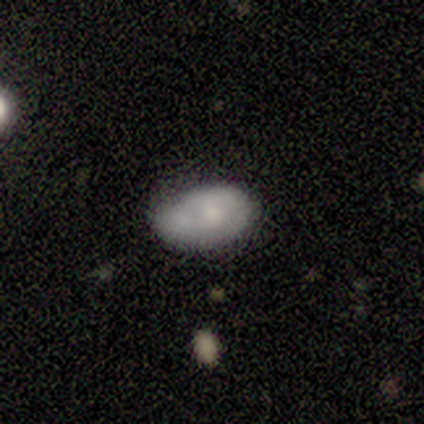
Smooth or featured?
  - smooth: 60% *
  - featured or disk: 40%
  - star or artifact: 0%
How rounded?
  - in between: 100% *
  - round: 0%
  - cigar-shaped: 0%
Merging?
  - none: 60% *
  - minor disturbance: 20%
  - merger: 20%
  - major disturbance: 0%